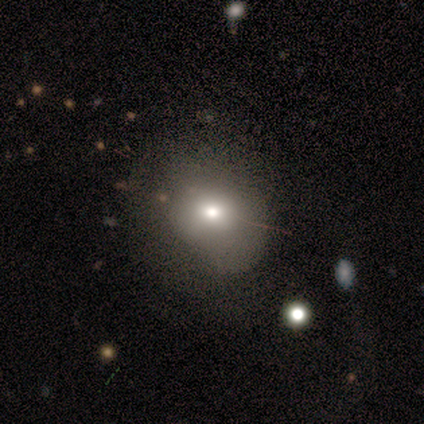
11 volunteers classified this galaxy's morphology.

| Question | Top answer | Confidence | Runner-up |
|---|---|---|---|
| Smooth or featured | smooth | 82% | featured or disk (18%) |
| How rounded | round | 56% | in between (44%) |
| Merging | none | 64% | minor disturbance (27%) |